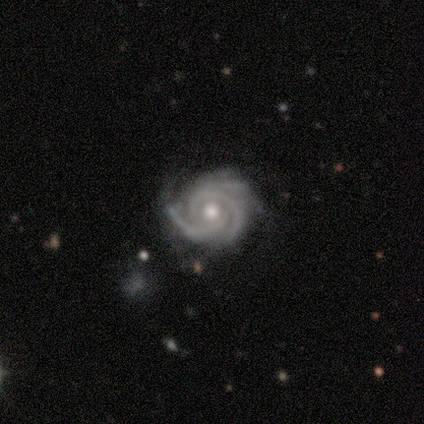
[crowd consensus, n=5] Smooth or featured? 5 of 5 (100%) said featured or disk. Edge-on disk? 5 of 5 (100%) said no. Bar? 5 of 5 (100%) said no. Spiral arms? 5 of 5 (100%) said yes. Spiral winding? 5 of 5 (100%) said tight. Spiral arm count? 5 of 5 (100%) said 3. Bulge size? 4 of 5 (80%) said moderate. Merging? 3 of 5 (60%) said none.